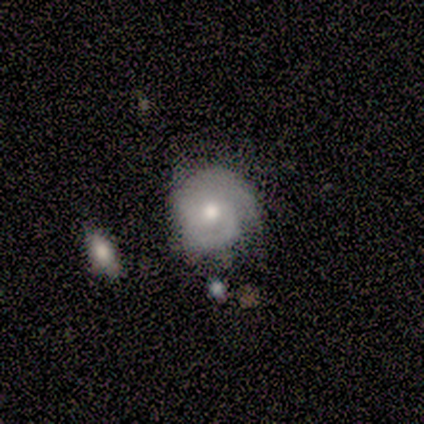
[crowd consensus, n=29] Overall: featured or disk (83%). Edge-on disk: no (100%). Bar: no (75%). Spiral arms: yes (96%). Spiral arm count: 2 (52%; can't tell 22%). Spiral winding: tight (65%; medium 26%). Bulge size: moderate (75%). Merging: none (59%; minor disturbance 28%).